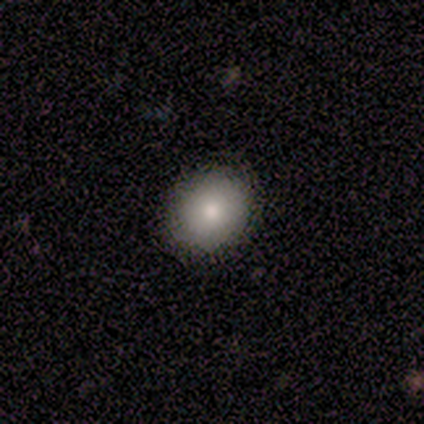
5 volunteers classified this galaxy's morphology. smooth_or_featured: smooth (p=1.00)
how_rounded: in between (p=0.60) [alt: round p=0.40]
merging: none (p=0.80) [alt: minor disturbance p=0.20]